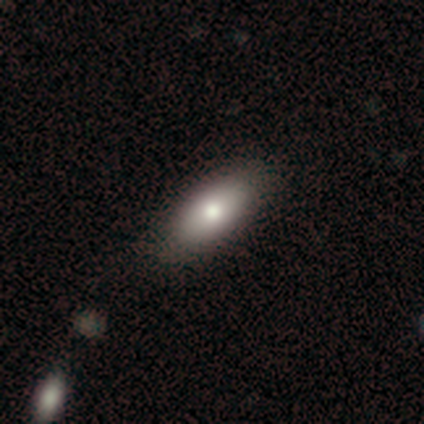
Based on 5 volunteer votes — Morphology: type=smooth (100%); roundness=in between (100%); merging=none (40%).